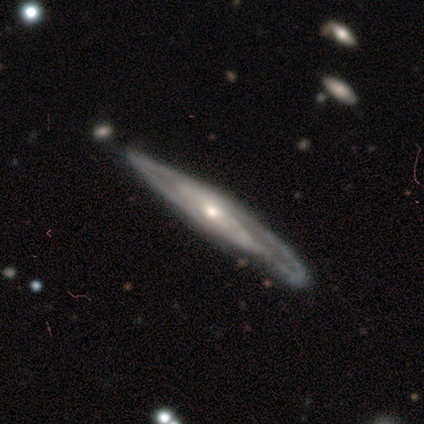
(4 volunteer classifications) featured or disk 75%, smooth 25%, star or artifact 0%. Down the decision tree: edge-on disk — yes (100%); edge-on bulge — none (67%); merging — minor disturbance (50%).